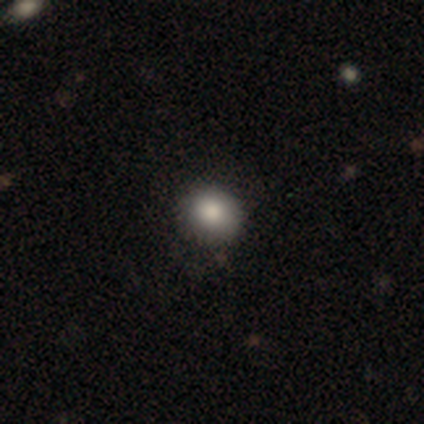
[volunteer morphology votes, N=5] A smooth galaxy with no disk features (100%) that is round (80%). Merging: none (100%).